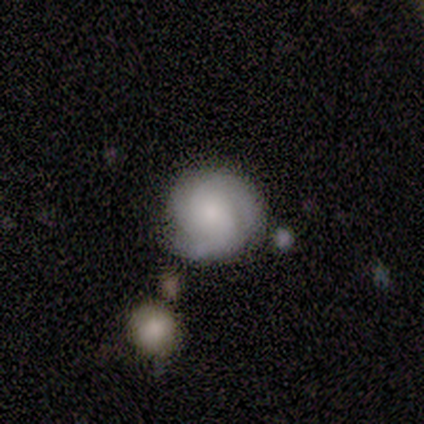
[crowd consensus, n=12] A featured or disk galaxy (75%) with no bar (89%), 2 (33%, tied with 3 and can't tell) medium (56%) spiral arms (100%) and a moderate central bulge (44%). Merging: none (83%).